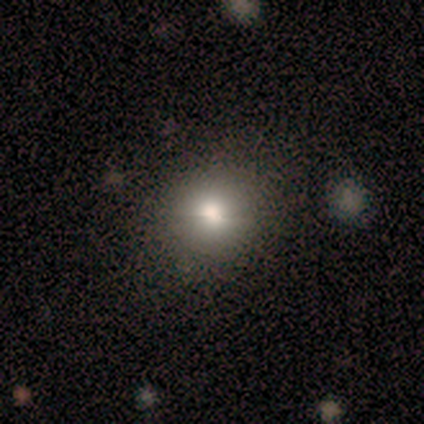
Volunteers were most divided on "smooth or featured": smooth: 60%, featured or disk: 40%, star or artifact: 0%. More confident: how rounded — round (100%); merging — none (100%).